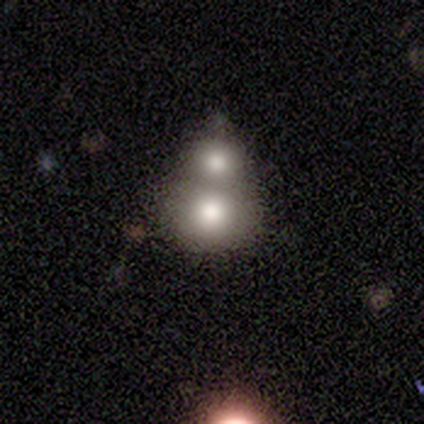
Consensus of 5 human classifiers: smooth_or_featured: smooth (p=0.60) [alt: featured or disk p=0.20]
how_rounded: in between (p=0.67) [alt: round p=0.33]
merging: merger (p=1.00)